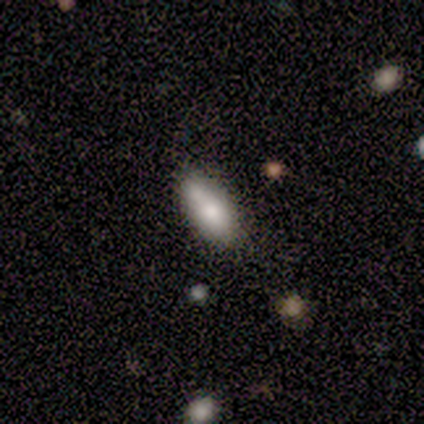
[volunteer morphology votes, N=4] Smooth or featured?
  - smooth: 75% *
  - featured or disk: 25%
  - star or artifact: 0%
How rounded?
  - in between: 100% *
  - round: 0%
  - cigar-shaped: 0%
Merging?
  - none: 75% *
  - merger: 25%
  - minor disturbance: 0%
  - major disturbance: 0%